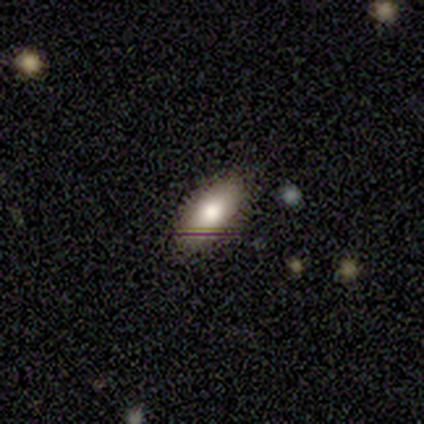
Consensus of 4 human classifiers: Morphology: type=smooth (100%); roundness=in between (100%); merging=none (100%).